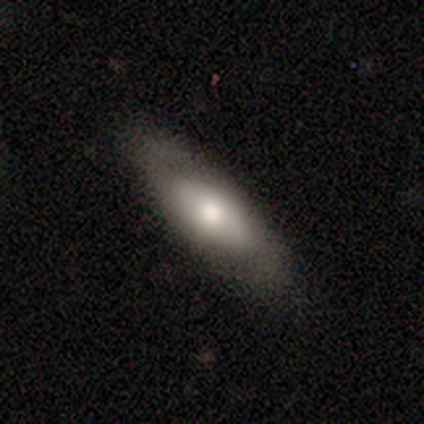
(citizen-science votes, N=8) Volunteers were most divided on "smooth or featured": smooth: 75%, featured or disk: 25%, star or artifact: 0%. More confident: merging — none (88%); how rounded — in between (83%).